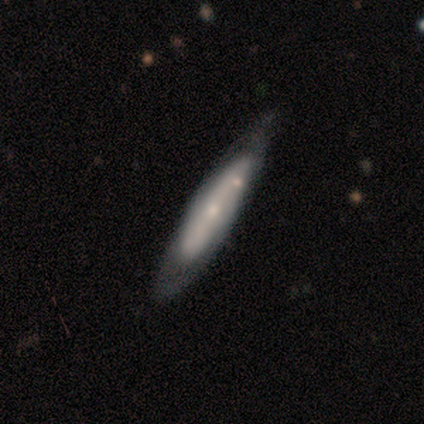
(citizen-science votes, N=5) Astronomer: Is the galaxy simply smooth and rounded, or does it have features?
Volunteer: smooth — 60%.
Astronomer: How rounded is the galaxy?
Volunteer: cigar-shaped — 100%.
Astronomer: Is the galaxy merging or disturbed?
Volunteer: none — 50%.